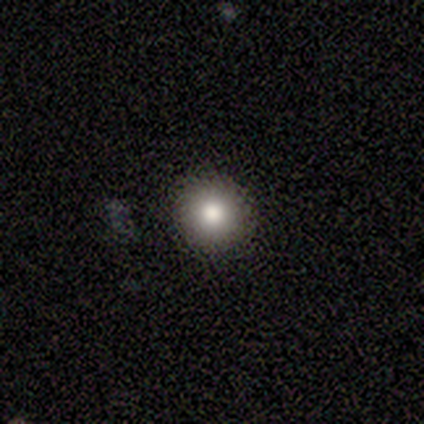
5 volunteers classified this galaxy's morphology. This appears to be a smooth galaxy with no disk features (100%) that is round (100%). Merging: none (80%).